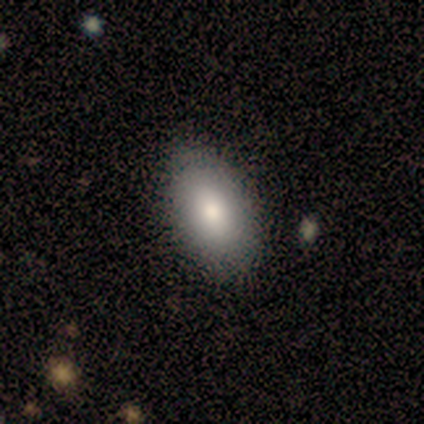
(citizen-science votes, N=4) A smooth galaxy with no disk features (100%) that is in between round and cigar-shaped (100%). Merging: none (75%).